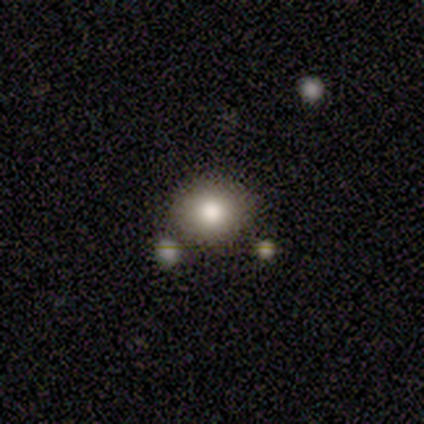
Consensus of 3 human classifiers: Smooth or featured? smooth (100%)
How rounded? round (100%)
Merging? none (67%)